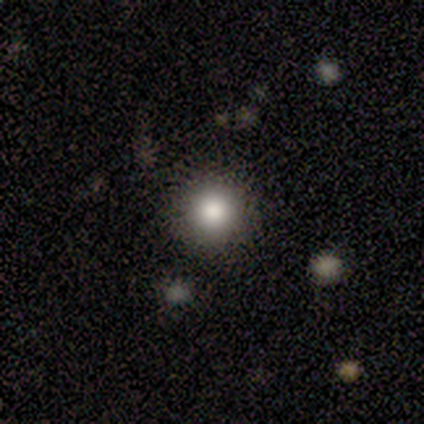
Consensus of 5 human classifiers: Volunteers were most divided on "how rounded": round: 80%, in between: 20%, cigar-shaped: 0%. More confident: smooth or featured — smooth (100%); merging — none (80%).